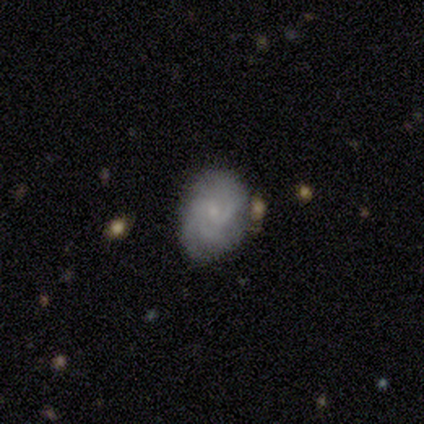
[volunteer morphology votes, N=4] Volunteers were most divided on "spiral winding": tight: 75%, medium: 25%, loose: 0%. More confident: smooth or featured — featured or disk (100%); edge-on disk — no (100%); bar — no (100%); spiral arms — yes (100%); bulge size — small (100%); merging — none (100%); spiral arm count — 3 (75%).